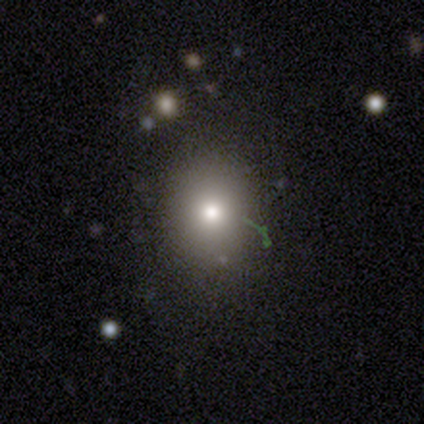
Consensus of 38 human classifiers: Q: Smooth or featured?
A: smooth (71%); runner-up: star or artifact (18%)
Q: How rounded?
A: round (56%); runner-up: in between (44%)
Q: Merging?
A: none (81%); runner-up: major disturbance (10%)